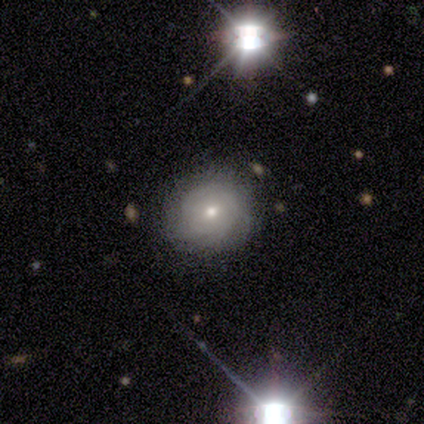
Q: Smooth or featured?
A: smooth (80%); runner-up: featured or disk (20%)
Q: How rounded?
A: round (50%); tied with: in between (50%)
Q: Merging?
A: none (100%)